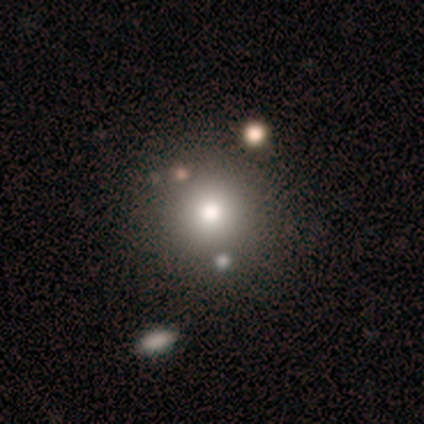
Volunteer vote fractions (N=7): A smooth galaxy with no disk features (86%) that is round (100%).

Vote fractions:
- Smooth or featured? smooth: 86% / star or artifact: 14% / featured or disk: 0%
- How rounded? round: 100% / in between: 0% / cigar-shaped: 0%
- Merging? none: 50% / minor disturbance: 17% / major disturbance: 17% / merger: 17%